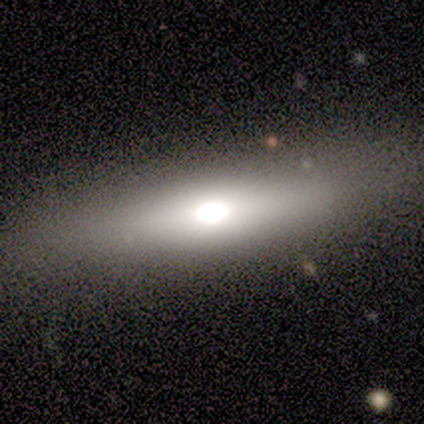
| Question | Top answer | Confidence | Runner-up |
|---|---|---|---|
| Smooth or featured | smooth | 50% | tied: featured or disk (50%) |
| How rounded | in between | 100% | — |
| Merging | none | 100% | — |